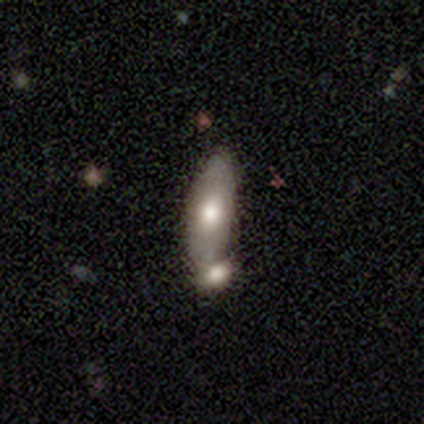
Smooth or featured? smooth (70%)
How rounded? in between (85%)
Merging? merger (74%)